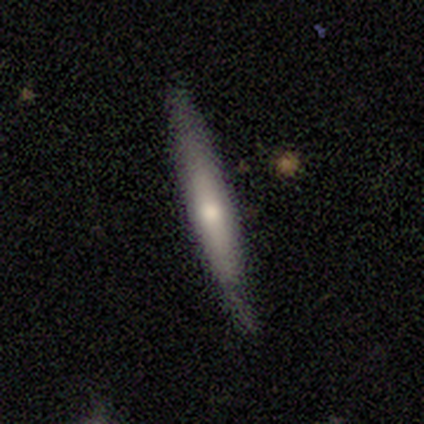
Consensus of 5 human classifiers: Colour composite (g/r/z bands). It shows a featured or disk galaxy (80%) viewed edge-on (100%) with no central bulge (50%, tied with rounded). Merging: none (40%, tied with minor disturbance).